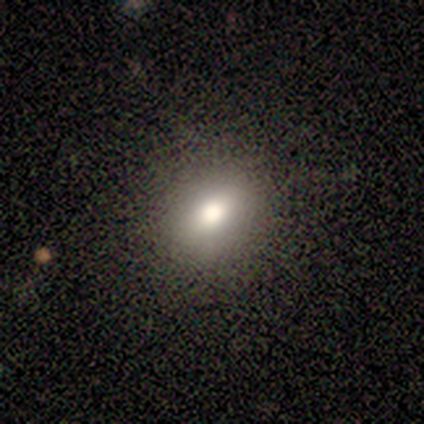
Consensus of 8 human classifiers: smooth 75%, star or artifact 25%, featured or disk 0%. Down the decision tree: how rounded — round (83%); merging — none (100%).